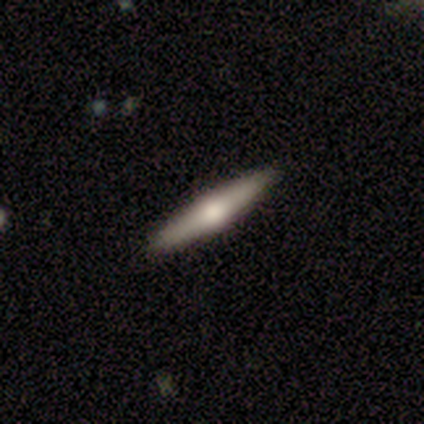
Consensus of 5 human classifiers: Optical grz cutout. It shows a smooth galaxy with no disk features (60%) that is cigar-shaped (100%). Merging: none (100%).